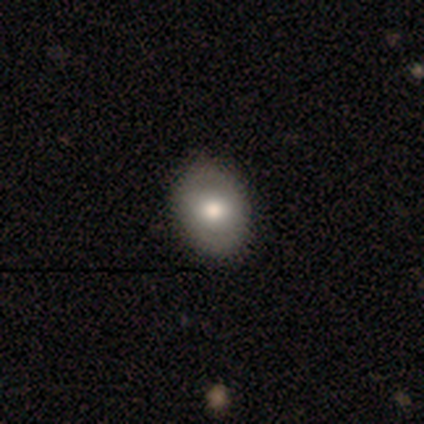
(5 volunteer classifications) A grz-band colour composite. It shows a smooth galaxy with no disk features (60%) that is in between round and cigar-shaped (67%). Merging: none (100%).